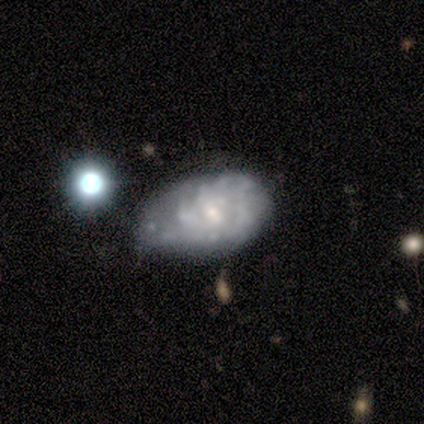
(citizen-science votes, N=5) Smooth or featured? 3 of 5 (60%) said featured or disk. Edge-on disk? 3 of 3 (100%) said no. Bar? 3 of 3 (100%) said no. Spiral arms? 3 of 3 (100%) said yes. Spiral winding? 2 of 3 (67%) said tight. Spiral arm count? 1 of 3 (33%, tied with 4 and can't tell) said 2. Bulge size? 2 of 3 (67%) said small. Merging? 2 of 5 (40%, tied with minor disturbance) said none.